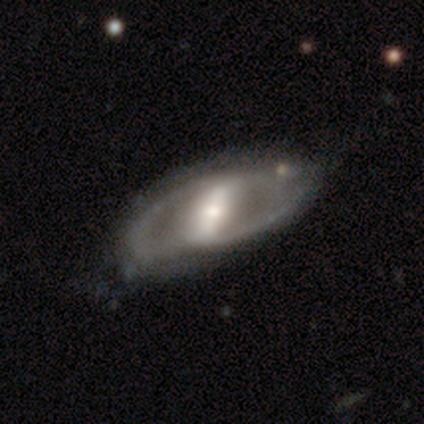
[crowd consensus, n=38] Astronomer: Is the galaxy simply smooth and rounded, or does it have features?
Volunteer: featured or disk — 79%.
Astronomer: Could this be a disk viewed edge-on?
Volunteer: no — 97%.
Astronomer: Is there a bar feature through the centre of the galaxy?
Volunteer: strong — 83%.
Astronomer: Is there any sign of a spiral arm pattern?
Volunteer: yes — 62% (runner-up: no, 38%).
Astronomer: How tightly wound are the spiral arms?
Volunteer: medium — 67%.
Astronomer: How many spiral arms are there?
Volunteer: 2 — 89%.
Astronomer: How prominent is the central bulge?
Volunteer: small — 48% (runner-up: moderate, 38%).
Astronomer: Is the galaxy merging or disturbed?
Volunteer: none — 60%.